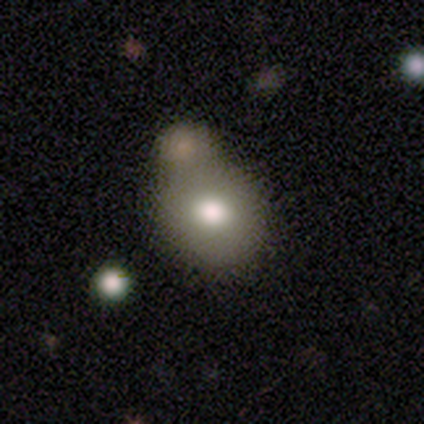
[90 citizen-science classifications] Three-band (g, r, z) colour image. It shows a smooth galaxy with no disk features (78%) that is round (71%). Merging: merger (45%).